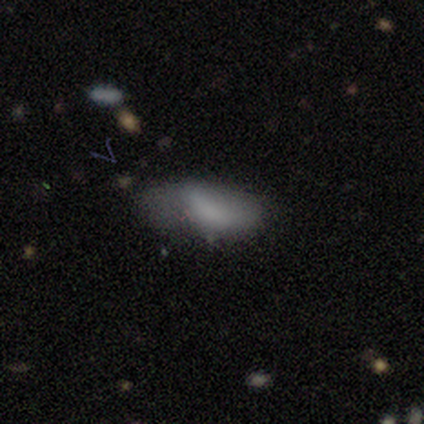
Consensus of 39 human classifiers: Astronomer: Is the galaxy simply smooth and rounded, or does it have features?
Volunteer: smooth — 72%.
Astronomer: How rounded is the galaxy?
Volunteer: in between — 96%.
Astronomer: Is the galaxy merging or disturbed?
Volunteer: none — 50% (runner-up: minor disturbance, 39%).